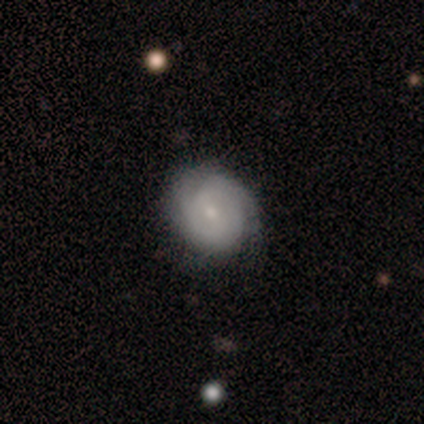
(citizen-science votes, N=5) featured or disk 100%, smooth 0%, star or artifact 0%. Down the decision tree: edge-on disk — no (60%); bar — no (67%); spiral arms — yes (100%); spiral arm count — 2 (33%, tied with 3 and can't tell); spiral winding — tight (67%); bulge size — small (67%); merging — none (100%).